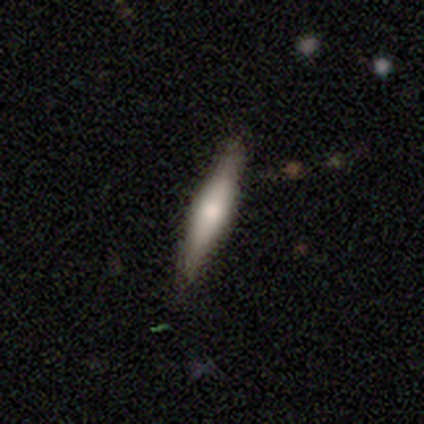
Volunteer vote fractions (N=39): Q: Smooth or featured?
A: smooth (54%); runner-up: featured or disk (41%)
Q: How rounded?
A: cigar-shaped (90%); runner-up: in between (10%)
Q: Merging?
A: none (86%); runner-up: minor disturbance (14%)